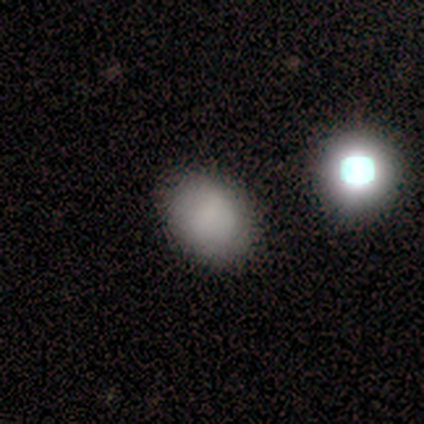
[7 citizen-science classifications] Morphology: type=smooth (86%); roundness=in between (83%); merging=none (100%).